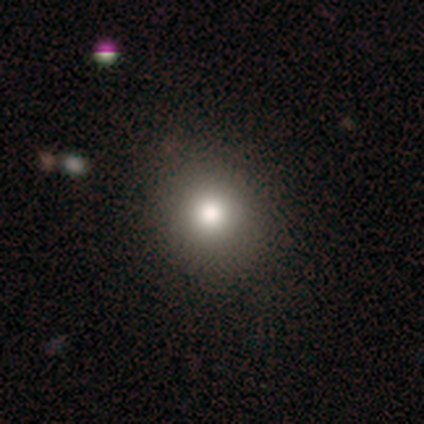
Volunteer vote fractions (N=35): Smooth or featured: smooth — 80% (featured or disk — 14%)
How rounded: round — 75% (in between — 25%)
Merging: none — 67% (minor disturbance — 3%)